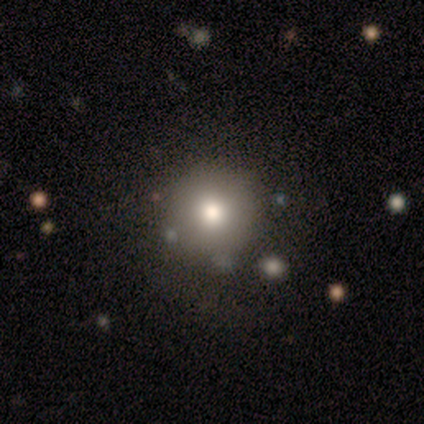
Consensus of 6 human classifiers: smooth-or-featured: smooth: 83% | star or artifact: 17% | featured or disk: 0%
  how-rounded: round: 80% | in between: 20% | cigar-shaped: 0%
  merging: none: 80% | major disturbance: 20% | minor disturbance: 0% | merger: 0%